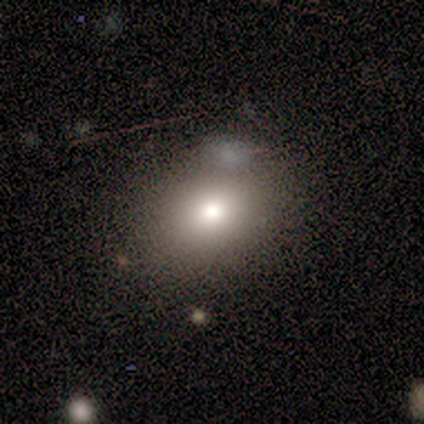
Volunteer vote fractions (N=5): Smooth or featured: smooth — 100%
How rounded: in between — 60% (round — 40%)
Merging: minor disturbance — 40% (none — 20%)